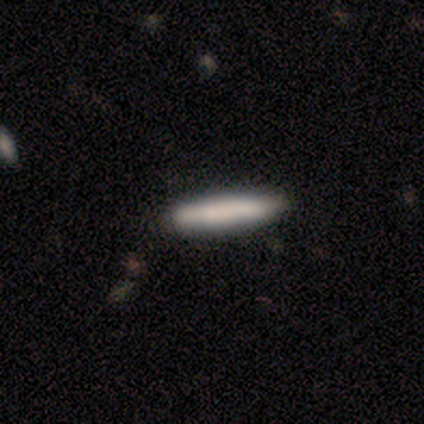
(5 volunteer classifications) This is clearly a smooth galaxy (100%). How rounded: clearly cigar-shaped (80%). Merging: clearly none (80%).